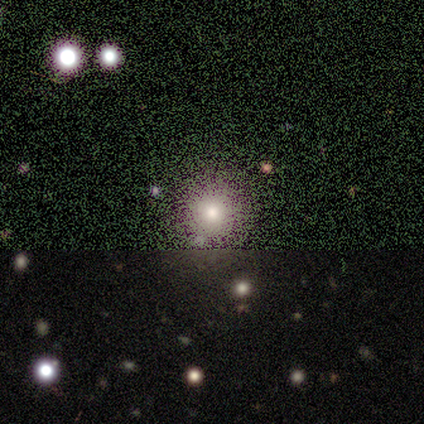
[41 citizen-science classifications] Q: Smooth or featured?
A: smooth (63%); runner-up: star or artifact (29%)
Q: How rounded?
A: round (92%); runner-up: in between (8%)
Q: Merging?
A: none (62%); runner-up: merger (10%)